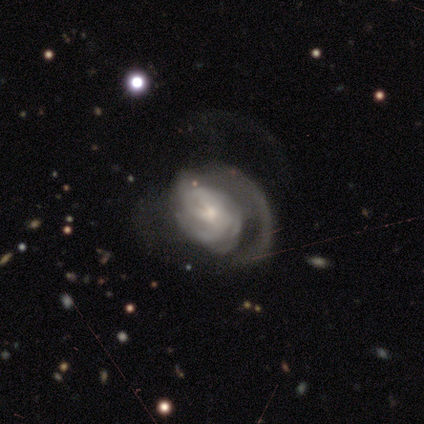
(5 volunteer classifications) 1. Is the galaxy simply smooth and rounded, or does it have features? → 100% featured or disk, 0% smooth, 0% star or artifact.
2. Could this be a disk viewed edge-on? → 100% no, 0% yes.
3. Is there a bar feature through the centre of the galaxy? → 60% no, 40% weak, 0% strong.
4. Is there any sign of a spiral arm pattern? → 100% yes, 0% no.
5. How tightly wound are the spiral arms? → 60% medium, 40% tight, 0% loose.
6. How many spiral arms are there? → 40% 3 (tied), 40% can't tell (tied), 20% 1, 0% 2, 0% 4, 0% more than 4.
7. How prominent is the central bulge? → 80% small, 20% moderate, 0% dominant, 0% large, 0% none.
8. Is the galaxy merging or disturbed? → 80% major disturbance, 20% minor disturbance, 0% none, 0% merger.